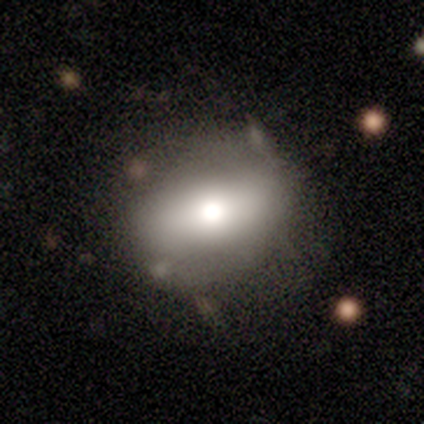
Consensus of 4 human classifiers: Overall: smooth (50%, tied with featured or disk). How rounded: in between (100%). Merging: none (50%; minor disturbance 25%).